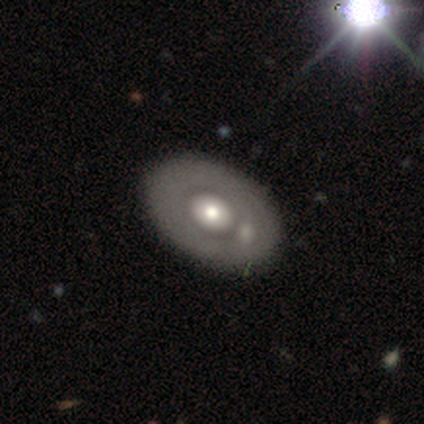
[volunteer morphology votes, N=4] A smooth galaxy with no disk features (75%) that is in between round and cigar-shaped (67%). Merging: none (100%).